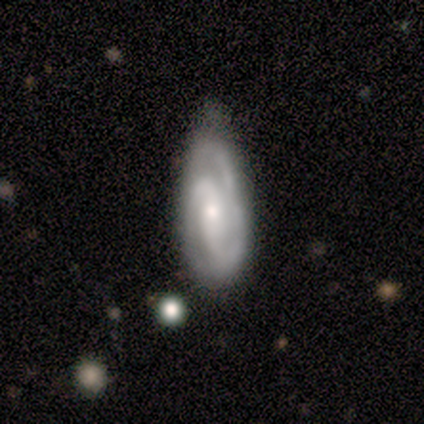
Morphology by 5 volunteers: This appears to be a featured or disk galaxy (100%) with a weak bar (60%), 2 (60%) medium (60%) spiral arms (100%) and a moderate central bulge (60%). Merging: minor disturbance (60%).